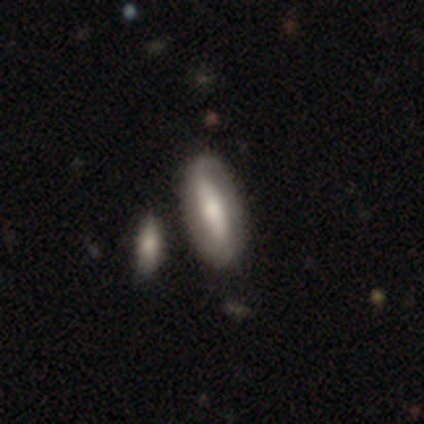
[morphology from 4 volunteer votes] Smooth or featured: featured or disk — 75% (smooth — 25%)
Edge-on disk: no — 100%
Bar: strong — 33% (tied with weak — 33%; no — 33%)
Spiral arms: yes — 67% (no — 33%)
Spiral winding: medium — 50% (tied with loose — 50%)
Spiral arm count: 2 — 100%
Bulge size: moderate — 67% (large — 33%)
Merging: none — 100%